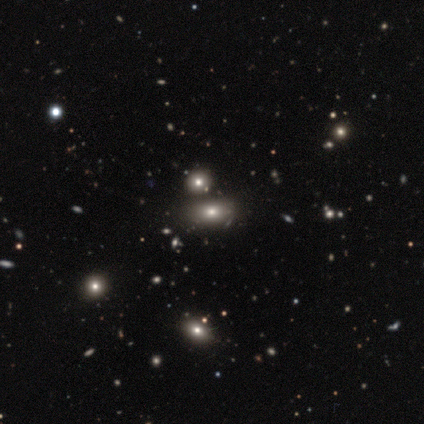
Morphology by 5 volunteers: Q: Smooth or featured?
A: smooth (100%)
Q: How rounded?
A: in between (80%); runner-up: round (20%)
Q: Merging?
A: none (80%); runner-up: minor disturbance (20%)